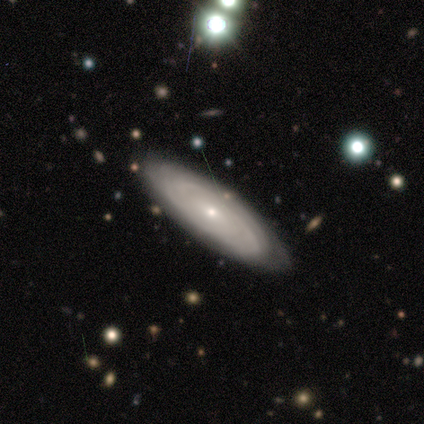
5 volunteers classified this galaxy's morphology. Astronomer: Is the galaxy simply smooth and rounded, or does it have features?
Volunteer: featured or disk — 100%.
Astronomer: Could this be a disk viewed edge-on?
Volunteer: no — 100%.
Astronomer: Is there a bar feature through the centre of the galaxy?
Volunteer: weak — 60% (runner-up: no, 40%).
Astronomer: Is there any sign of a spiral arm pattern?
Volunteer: yes — 100%.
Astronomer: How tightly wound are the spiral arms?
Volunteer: tight — 80%.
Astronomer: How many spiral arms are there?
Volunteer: can't tell — 80%.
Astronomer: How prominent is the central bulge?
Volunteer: small — 100%.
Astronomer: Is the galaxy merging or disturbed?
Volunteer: none — 80%.